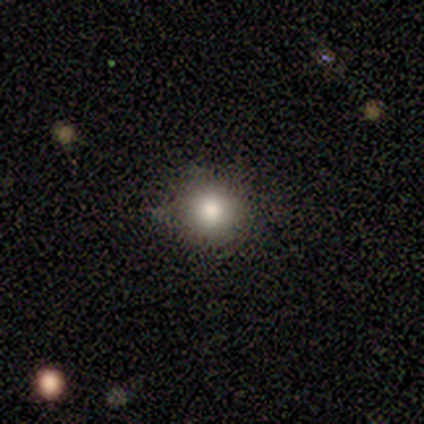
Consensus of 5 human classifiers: smooth 100%, featured or disk 0%, star or artifact 0%. Down the decision tree: how rounded — round (100%); merging — none (80%).